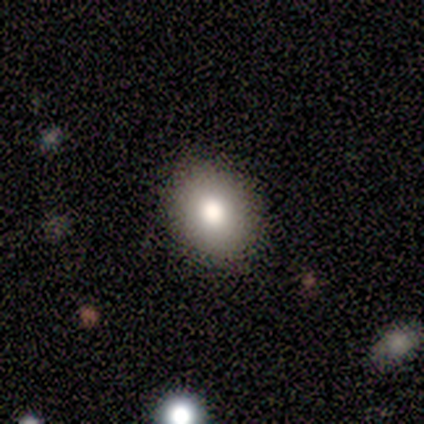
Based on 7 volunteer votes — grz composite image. It shows a smooth galaxy with no disk features (71%) that is in between round and cigar-shaped (80%). Merging: none (83%).